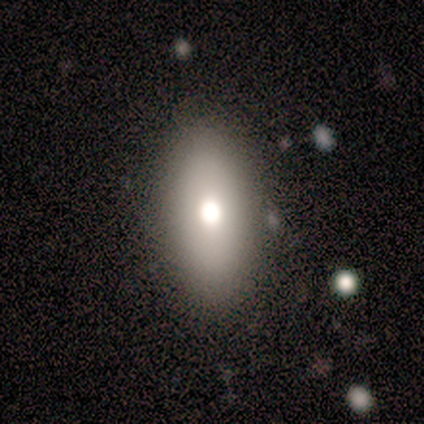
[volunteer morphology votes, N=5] Q: Smooth or featured?
A: smooth (80%); runner-up: star or artifact (20%)
Q: How rounded?
A: in between (100%)
Q: Merging?
A: none (100%)